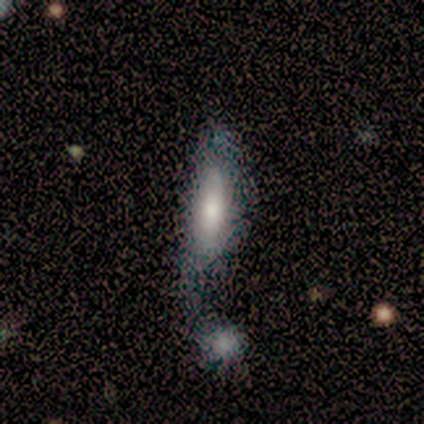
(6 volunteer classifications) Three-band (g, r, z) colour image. It shows a smooth galaxy with no disk features (50%, tied with featured or disk) that is round (33%, tied with in between and cigar-shaped). Merging: merger (50%).